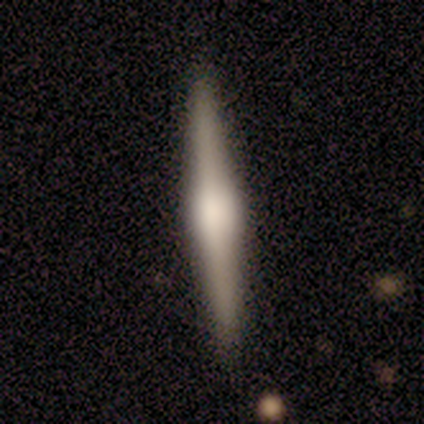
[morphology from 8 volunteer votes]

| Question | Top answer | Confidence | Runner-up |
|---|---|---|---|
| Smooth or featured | featured or disk | 88% | smooth (12%) |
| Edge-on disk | yes | 100% | — |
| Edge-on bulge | boxy | 57% | rounded (43%) |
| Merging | none | 100% | — |